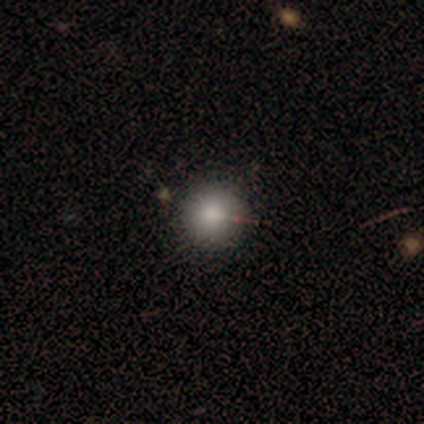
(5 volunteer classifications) Overall: smooth (100%). How rounded: round (100%). Merging: none (100%).